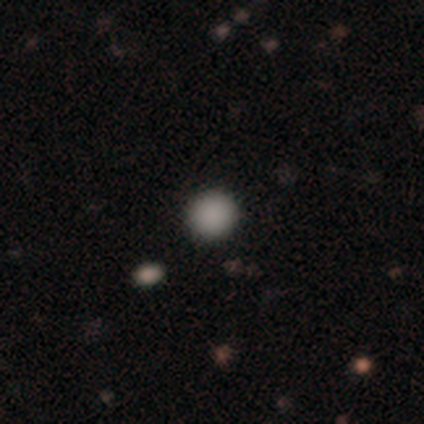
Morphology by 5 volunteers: Overall: smooth (100%). How rounded: round (80%). Merging: none (80%).